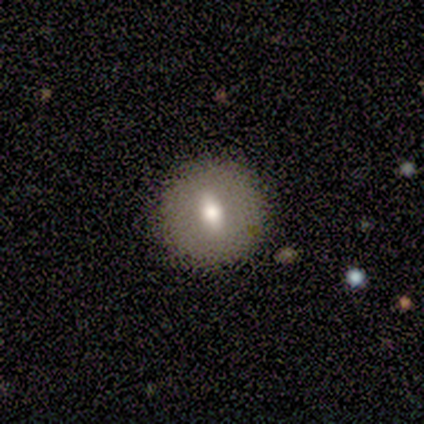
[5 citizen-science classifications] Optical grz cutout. It shows a featured or disk galaxy (60%) with no bar (100%), no spiral arms (100%) and a moderate central bulge (67%). Merging: none (80%).